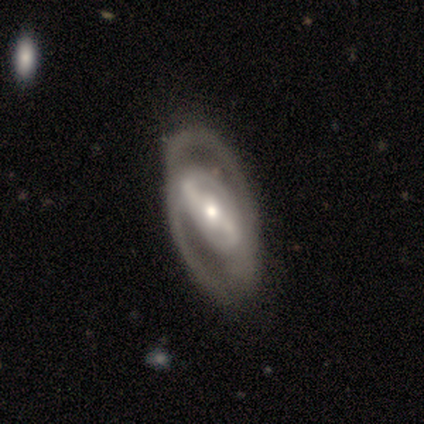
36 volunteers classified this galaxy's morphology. Volunteers were most divided on "spiral winding": tight: 50%, medium: 35%, loose: 15%. Remaining: smooth or featured — featured or disk (97%); edge-on disk — no (97%); spiral arm count — 2 (85%); spiral arms — yes (76%); bulge size — moderate (62%); bar — strong (53%); merging — none (44%).